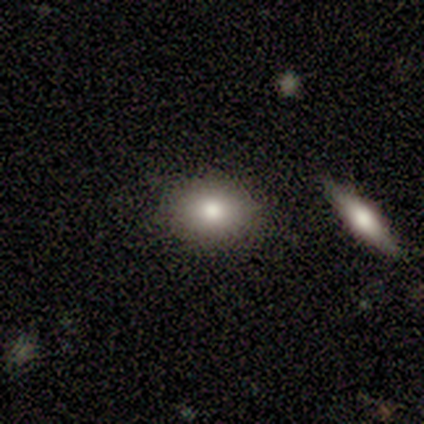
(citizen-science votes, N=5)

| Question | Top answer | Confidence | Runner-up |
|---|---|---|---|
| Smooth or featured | smooth | 100% | — |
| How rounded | round | 60% | in between (40%) |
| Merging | none | 100% | — |